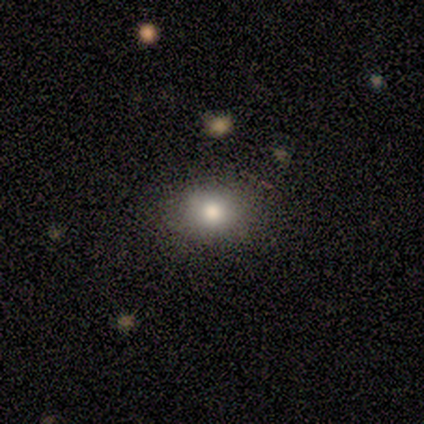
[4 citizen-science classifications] Smooth or featured? 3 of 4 (75%) said smooth. How rounded? 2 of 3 (67%) said round. Merging? 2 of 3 (67%) said none.